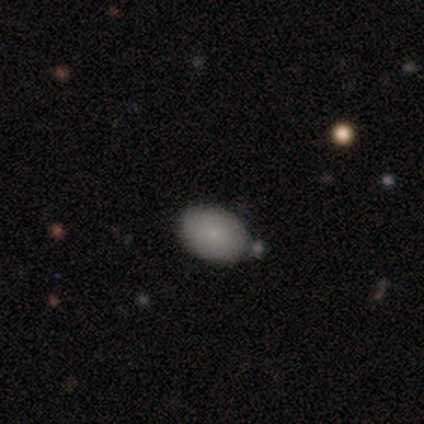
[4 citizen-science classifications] Smooth or featured? 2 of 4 (50%, tied with featured or disk) said smooth. How rounded? 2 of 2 (100%) said in between. Merging? 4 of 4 (100%) said none.